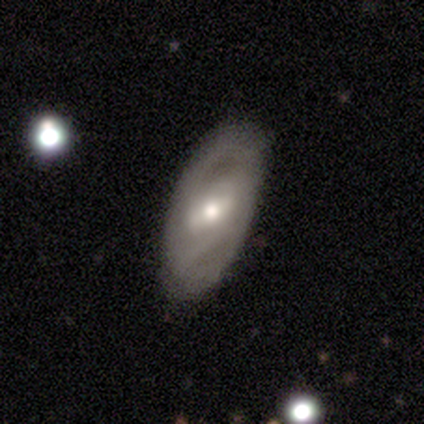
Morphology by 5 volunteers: Overall: featured or disk (100%). Edge-on disk: no (80%). Bar: weak (50%; strong 25%). Spiral arms: no (75%). Bulge size: moderate (100%). Merging: none (100%).